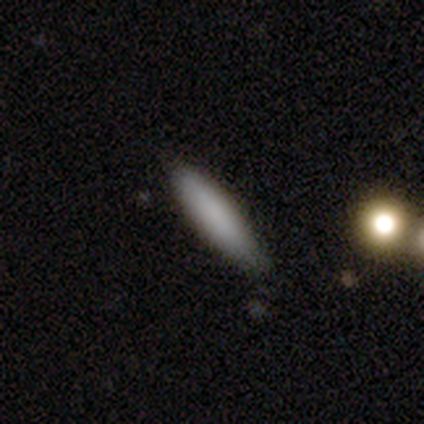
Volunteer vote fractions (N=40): This is clearly a smooth galaxy (85%). How rounded: likely cigar-shaped (76%). Merging: likely none (79%).